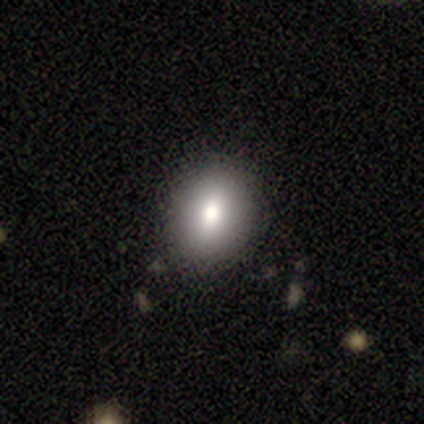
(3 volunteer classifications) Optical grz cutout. It shows a smooth galaxy with no disk features (100%) that is in between round and cigar-shaped (67%). Merging: none (100%).